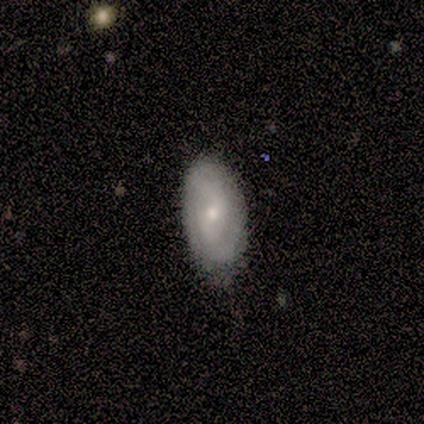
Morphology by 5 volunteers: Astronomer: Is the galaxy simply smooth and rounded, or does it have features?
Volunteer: featured or disk — 60% (runner-up: smooth, 40%).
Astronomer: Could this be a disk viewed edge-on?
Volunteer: no — 100%.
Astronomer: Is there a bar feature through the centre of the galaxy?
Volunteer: weak — 100%.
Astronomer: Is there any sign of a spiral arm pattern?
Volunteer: yes — 100%.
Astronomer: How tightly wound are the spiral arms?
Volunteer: tight — 67%.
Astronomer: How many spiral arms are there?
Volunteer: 2 — 67%.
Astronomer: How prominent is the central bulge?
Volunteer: small — 67%.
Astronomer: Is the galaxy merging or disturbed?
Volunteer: none — 80%.